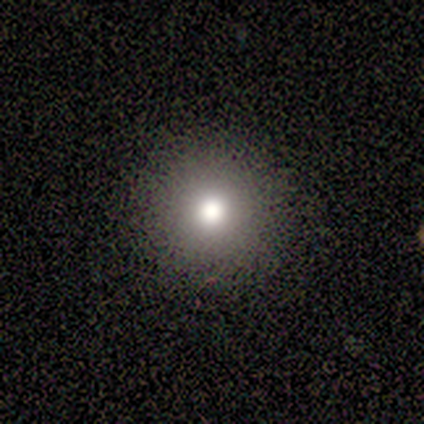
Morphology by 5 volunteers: Consensus on every question: smooth or featured — smooth (100%); how rounded — round (100%); merging — none (100%).